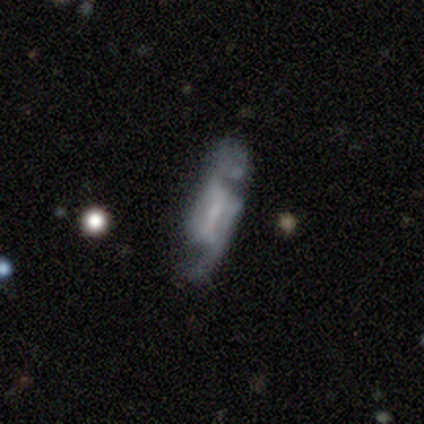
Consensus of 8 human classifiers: This is likely a featured or disk galaxy (62%). It is clearly not viewed edge-on (100%). Bar: marginally strong (40%, tied with no). Spiral arm pattern: likely yes (60%). Spiral arm count: likely 2 (67%). Spiral winding: likely loose (67%). Central bulge: marginally none (40%). Merging: marginally none (38%, tied with major disturbance).